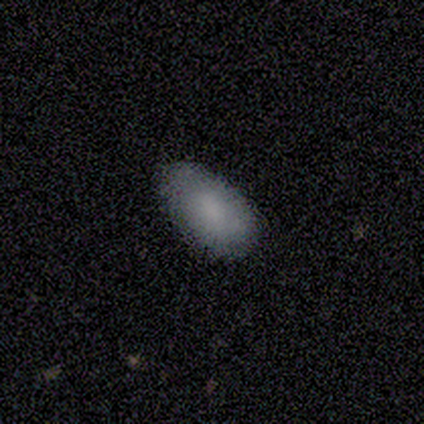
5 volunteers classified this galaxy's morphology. Smooth or featured? smooth (80%)
How rounded? in between (100%)
Merging? none (100%)